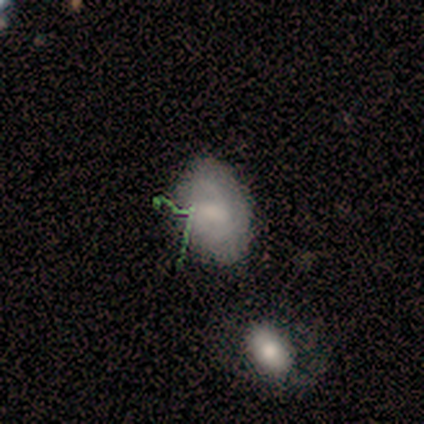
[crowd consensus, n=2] smooth-or-featured: smooth: 50% (tied) | featured or disk: 50% (tied) | star or artifact: 0%
  how-rounded: in between: 100% | round: 0% | cigar-shaped: 0%
  merging: none: 100% | minor disturbance: 0% | major disturbance: 0% | merger: 0%